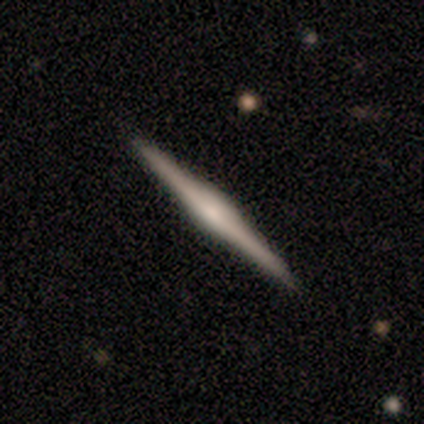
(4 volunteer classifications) Smooth or featured? featured or disk (100%)
Edge-on disk? yes (100%)
Edge-on bulge? boxy (50%, tied with rounded)
Merging? none (100%)